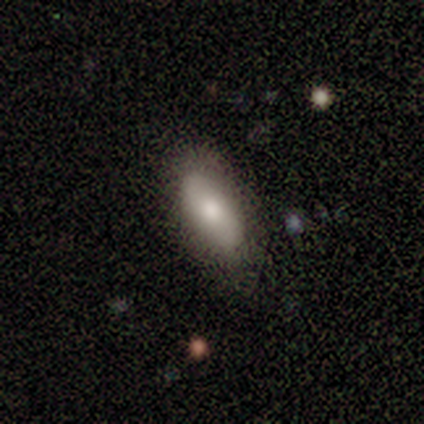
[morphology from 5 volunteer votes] A smooth galaxy with no disk features (80%) that is in between round and cigar-shaped (75%). Merging: none (80%).